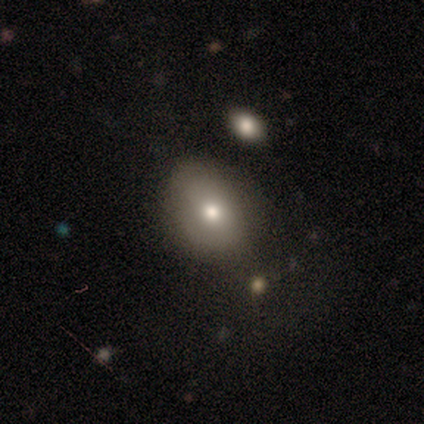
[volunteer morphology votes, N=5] smooth_or_featured: smooth (p=0.80) [alt: featured or disk p=0.20]
how_rounded: round (p=0.50) [tied with: in between p=0.50]
merging: none (p=0.80) [alt: minor disturbance p=0.20]